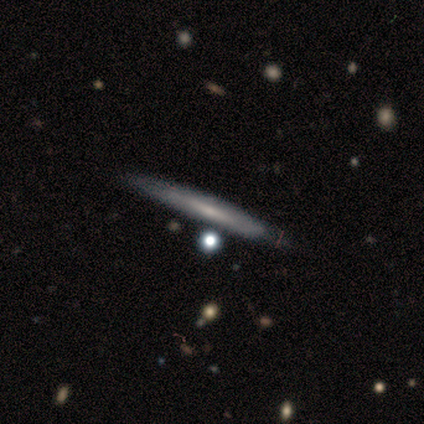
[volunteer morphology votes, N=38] smooth_or_featured: featured or disk (p=0.55) [alt: smooth p=0.42]
disk_edge_on: yes (p=1.00)
edge_on_bulge: none (p=0.76) [alt: rounded p=0.19]
merging: none (p=0.62) [alt: minor disturbance p=0.08]